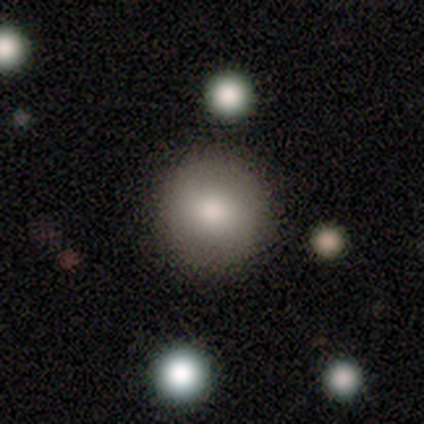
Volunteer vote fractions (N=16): Smooth or featured?
  - smooth: 94% *
  - featured or disk: 6%
  - star or artifact: 0%
How rounded?
  - round: 100% *
  - in between: 0%
  - cigar-shaped: 0%
Merging?
  - none: 81% *
  - minor disturbance: 19%
  - major disturbance: 0%
  - merger: 0%